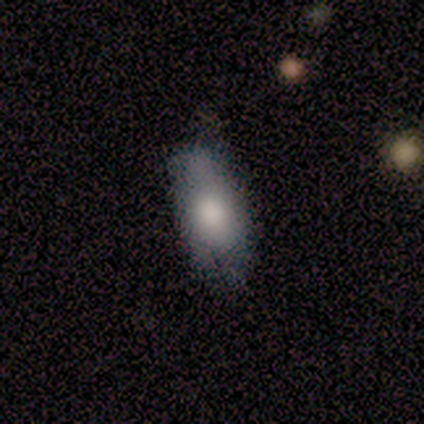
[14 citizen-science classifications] Smooth or featured? smooth (93%)
How rounded? in between (92%)
Merging? none (64%)